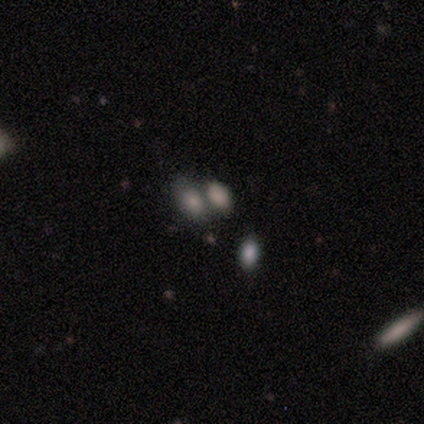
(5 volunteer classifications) Morphology: type=smooth (60%); roundness=in between (100%); merging=none (50%).